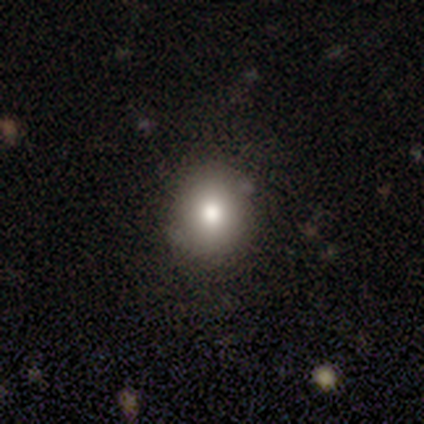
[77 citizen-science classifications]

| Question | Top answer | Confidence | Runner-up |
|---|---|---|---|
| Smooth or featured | smooth | 88% | star or artifact (9%) |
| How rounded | round | 81% | in between (19%) |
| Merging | none | 46% | minor disturbance (7%) |